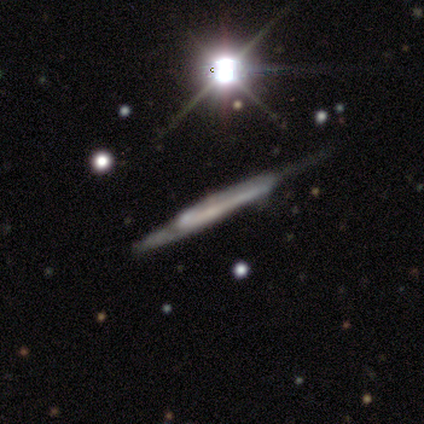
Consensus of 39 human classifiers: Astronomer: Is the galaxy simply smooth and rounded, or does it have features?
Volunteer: featured or disk — 67%.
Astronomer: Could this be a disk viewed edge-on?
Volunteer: yes — 96%.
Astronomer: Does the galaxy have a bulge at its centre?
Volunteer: boxy — 52% (runner-up: none, 32%).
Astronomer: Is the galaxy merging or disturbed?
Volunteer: none — 47% (runner-up: minor disturbance, 30%).